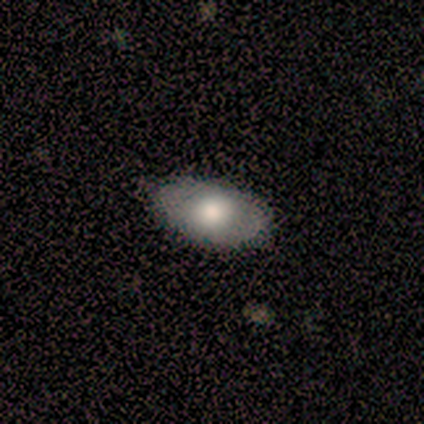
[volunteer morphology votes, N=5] Smooth or featured?
  - smooth: 60% *
  - featured or disk: 40%
  - star or artifact: 0%
How rounded?
  - in between: 100% *
  - round: 0%
  - cigar-shaped: 0%
Merging?
  - none: 80% *
  - minor disturbance: 20%
  - major disturbance: 0%
  - merger: 0%